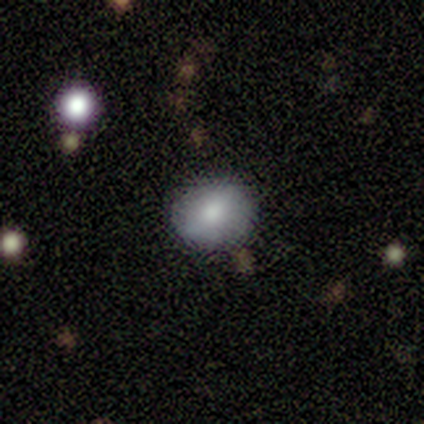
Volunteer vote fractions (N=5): Volunteers were most divided on "how rounded": round: 80%, in between: 20%, cigar-shaped: 0%. More confident: smooth or featured — smooth (100%); merging — none (80%).